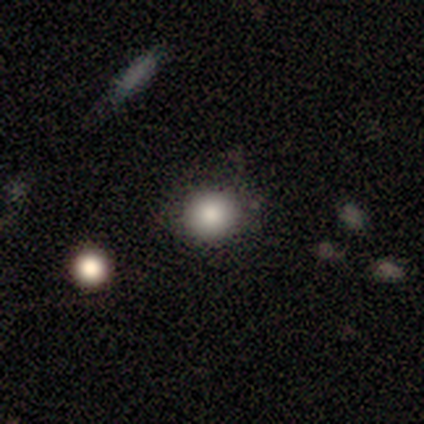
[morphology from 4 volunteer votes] Smooth or featured? 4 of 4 (100%) said smooth. How rounded? 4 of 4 (100%) said round. Merging? 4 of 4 (100%) said none.